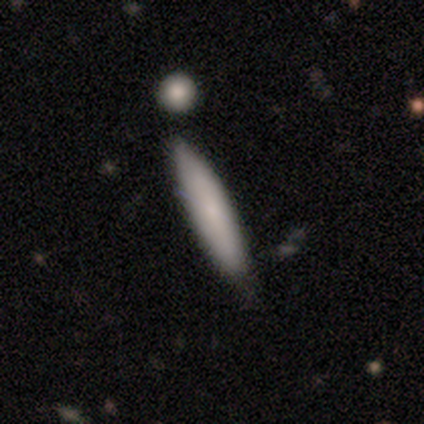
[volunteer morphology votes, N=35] A smooth galaxy with no disk features (80%) that is cigar-shaped (82%).

Vote fractions:
- Smooth or featured? smooth: 80% / featured or disk: 14% / star or artifact: 6%
- How rounded? cigar-shaped: 82% / in between: 18% / round: 0%
- Merging? none: 73% / minor disturbance: 27% / major disturbance: 0% / merger: 0%